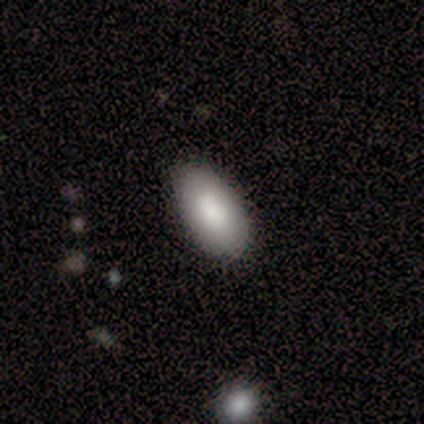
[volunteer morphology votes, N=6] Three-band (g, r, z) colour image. It shows a smooth galaxy with no disk features (100%) that is in between round and cigar-shaped (83%). Merging: none (83%).